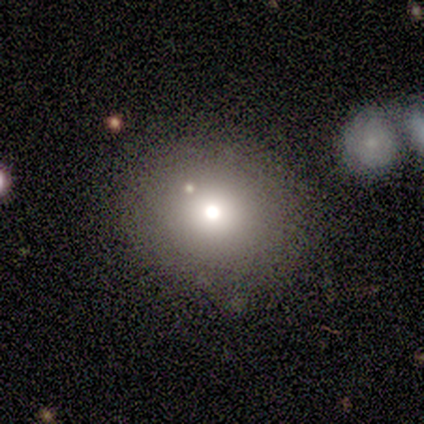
Q: Smooth or featured?
A: smooth (67%); runner-up: star or artifact (33%)
Q: How rounded?
A: round (100%)
Q: Merging?
A: none (50%); tied with: minor disturbance (50%)